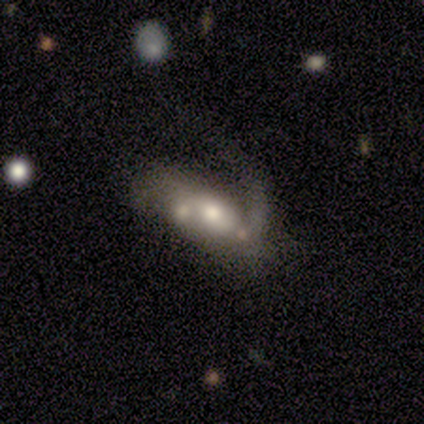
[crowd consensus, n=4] Smooth or featured? featured or disk (75%)
Edge-on disk? no (100%)
Bar? no (67%)
Spiral arms? no (67%)
Bulge size? moderate (67%)
Merging? merger (50%)